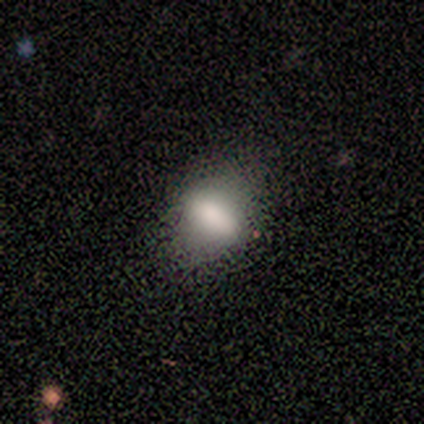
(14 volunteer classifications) Q: Smooth or featured?
A: smooth (64%); runner-up: featured or disk (36%)
Q: How rounded?
A: in between (67%); runner-up: round (22%)
Q: Merging?
A: none (71%); runner-up: minor disturbance (21%)